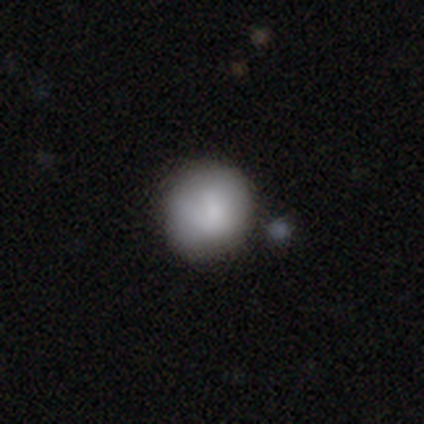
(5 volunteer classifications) A smooth galaxy with no disk features (100%) that is round (100%).

Vote fractions:
- Smooth or featured? smooth: 100% / featured or disk: 0% / star or artifact: 0%
- How rounded? round: 100% / in between: 0% / cigar-shaped: 0%
- Merging? none: 80% / merger: 20% / minor disturbance: 0% / major disturbance: 0%